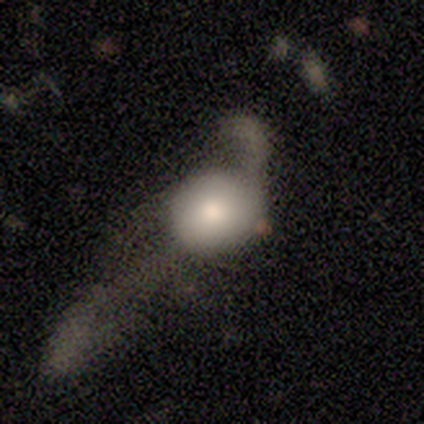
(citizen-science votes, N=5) This appears to be a smooth galaxy with no disk features (60%) that is round (100%). Merging: major disturbance (60%).